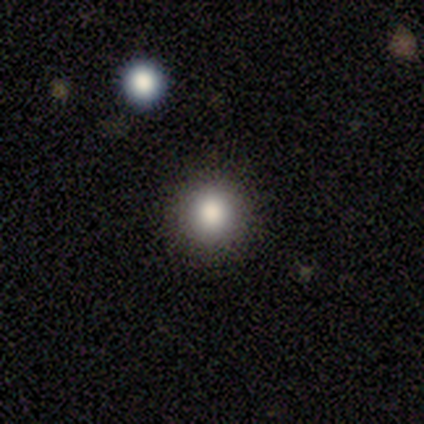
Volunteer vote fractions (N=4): Consensus on every question: smooth or featured — smooth (100%); how rounded — round (100%); merging — none (100%).